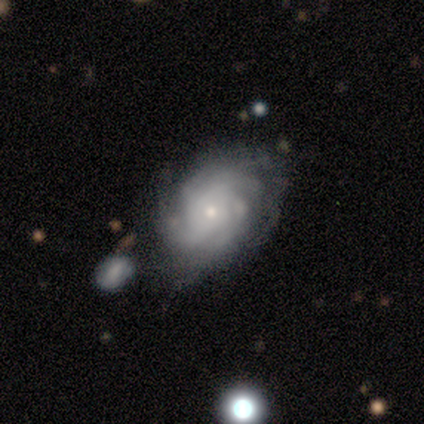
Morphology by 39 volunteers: Volunteers were most divided on "spiral arm count": can't tell: 39%, 4: 30%, more than 4: 18%, 2: 6%, 1: 3%, 3: 3%. More confident: edge-on disk — no (100%); spiral arms — yes (97%); smooth or featured — featured or disk (87%); bar — no (85%); bulge size — small (65%); merging — none (63%); spiral winding — tight (55%).